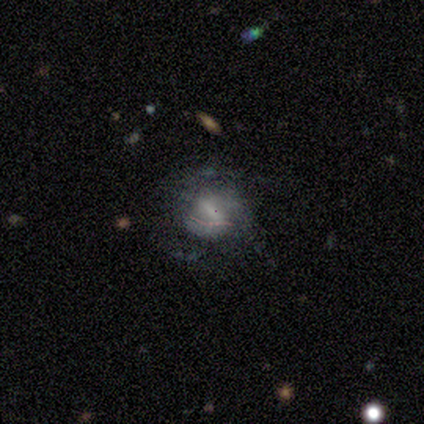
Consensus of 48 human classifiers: Overall: featured or disk (52%; smooth 38%). Edge-on disk: no (88%). Bar: strong (36%; weak 32%). Spiral arms: yes (59%; no 41%). Spiral arm count: 3 (38%; can't tell 31%). Spiral winding: loose (46%; medium 38%). Bulge size: small (36%; none 32%). Merging: none (49%; major disturbance 37%).